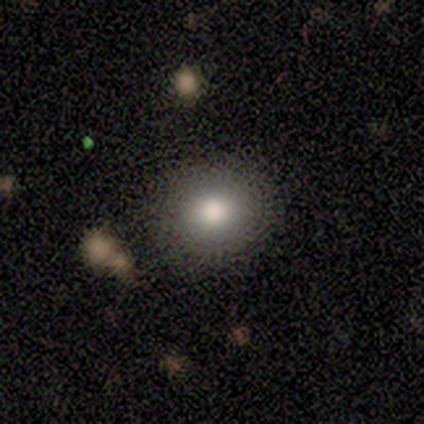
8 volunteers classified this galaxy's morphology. smooth-or-featured: smooth: 50% | featured or disk: 25% | star or artifact: 25%
  how-rounded: round: 100% | in between: 0% | cigar-shaped: 0%
  merging: none: 83% | minor disturbance: 17% | major disturbance: 0% | merger: 0%